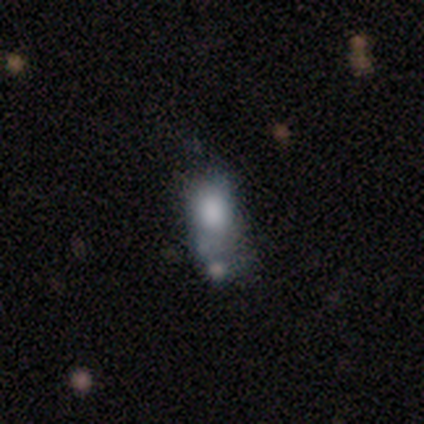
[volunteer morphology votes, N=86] smooth 62%, featured or disk 24%, star or artifact 14%. Down the decision tree: how rounded — in between (72%); merging — minor disturbance (27%, tied with merger).